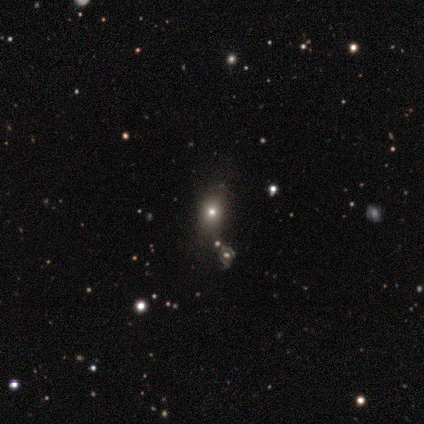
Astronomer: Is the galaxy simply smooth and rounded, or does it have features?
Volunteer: smooth — 60% (runner-up: star or artifact, 40%).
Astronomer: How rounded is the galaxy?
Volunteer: round — 67%.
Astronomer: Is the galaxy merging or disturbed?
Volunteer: none — 67%.